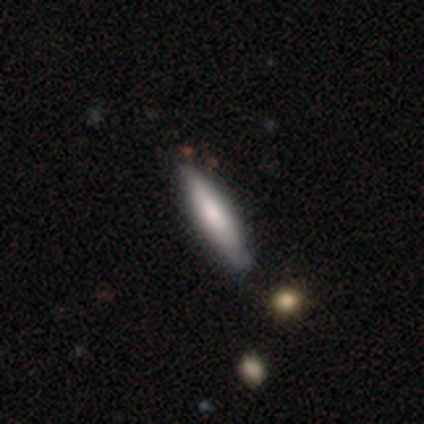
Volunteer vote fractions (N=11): smooth 91%, featured or disk 9%, star or artifact 0%. Down the decision tree: how rounded — cigar-shaped (90%); merging — none (64%).